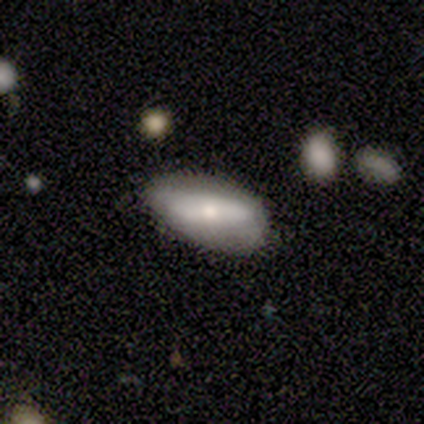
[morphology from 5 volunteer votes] Overall: featured or disk (80%). Edge-on disk: no (75%). Bar: strong (100%). Spiral arms: no (67%; yes 33%). Bulge size: large (33%, tied with moderate and small). Merging: minor disturbance (60%; none 40%).